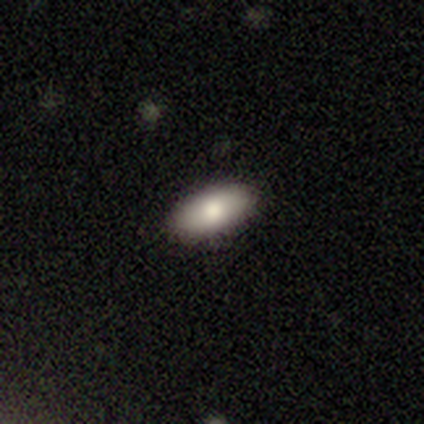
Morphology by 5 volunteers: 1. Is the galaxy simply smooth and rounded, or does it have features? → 100% smooth, 0% featured or disk, 0% star or artifact.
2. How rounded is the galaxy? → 80% in between, 20% round, 0% cigar-shaped.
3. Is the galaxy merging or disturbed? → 100% none, 0% minor disturbance, 0% major disturbance, 0% merger.